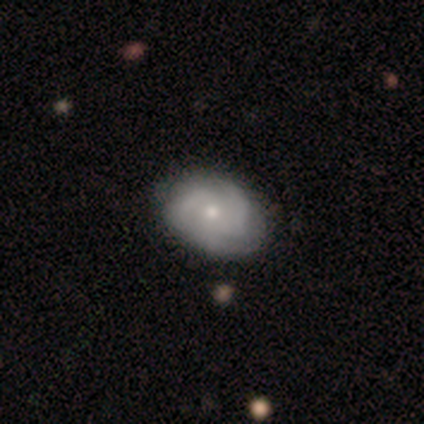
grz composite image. It shows a featured or disk galaxy (70%) with no bar (82%), 3 (48%) medium (54%) spiral arms (95%) and a small central bulge (55%). Merging: none (40%).